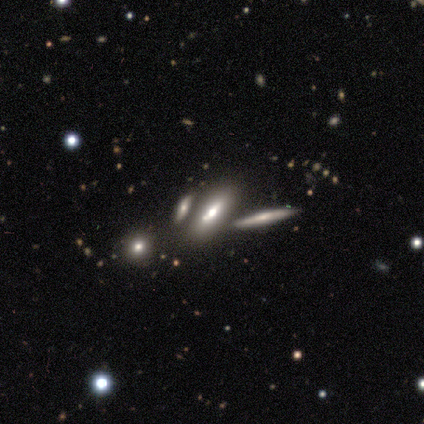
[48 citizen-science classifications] This appears to be a smooth galaxy with no disk features (54%) that is in between round and cigar-shaped (69%). Merging: none (65%).